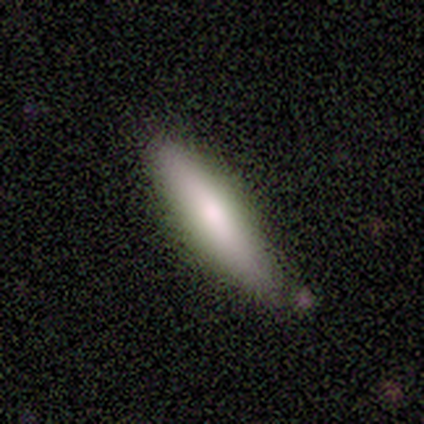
smooth_or_featured: smooth (p=0.60) [alt: featured or disk p=0.40]
how_rounded: cigar-shaped (p=1.00)
merging: none (p=0.80) [alt: minor disturbance p=0.20]